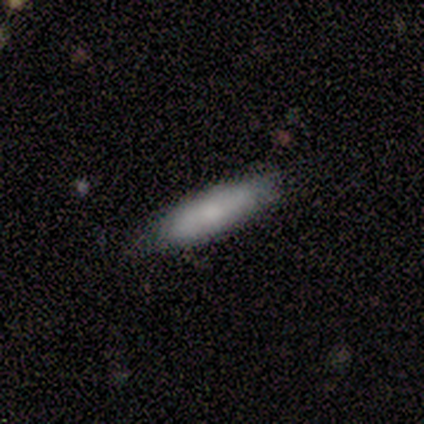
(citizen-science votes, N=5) This appears to be a smooth galaxy with no disk features (100%) that is cigar-shaped (80%). Merging: none (80%).